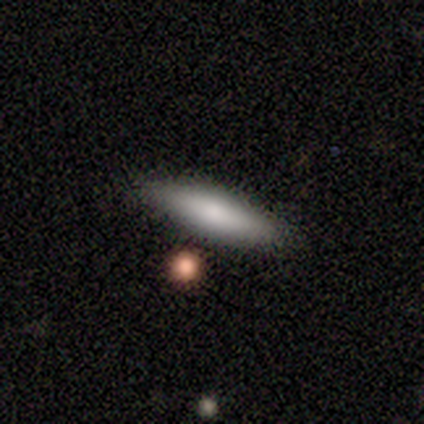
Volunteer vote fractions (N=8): Smooth or featured: smooth — 62% (star or artifact — 25%)
How rounded: cigar-shaped — 80% (in between — 20%)
Merging: none — 67% (minor disturbance — 17%)